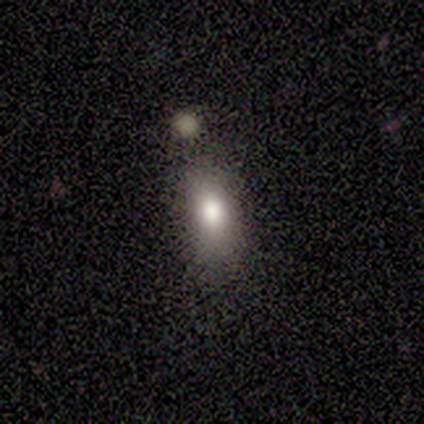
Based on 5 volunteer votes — Smooth or featured? smooth (80%)
How rounded? in between (100%)
Merging? none (100%)